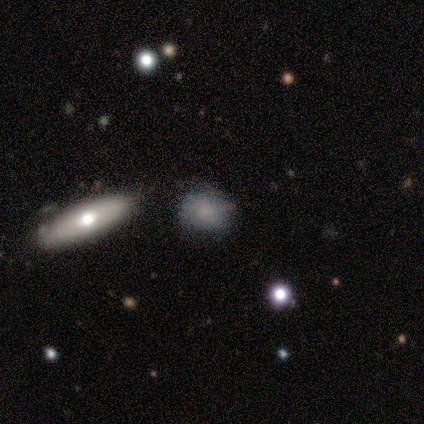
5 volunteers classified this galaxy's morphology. Overall: smooth (60%; featured or disk 20%). How rounded: in between (67%; round 33%). Merging: none (50%; minor disturbance 25%).